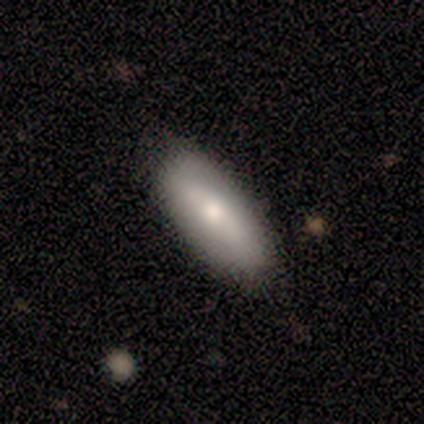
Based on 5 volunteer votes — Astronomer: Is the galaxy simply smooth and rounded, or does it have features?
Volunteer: smooth — 60% (runner-up: featured or disk, 40%).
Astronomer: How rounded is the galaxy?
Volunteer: in between — 67%.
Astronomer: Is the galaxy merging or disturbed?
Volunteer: none — 80%.